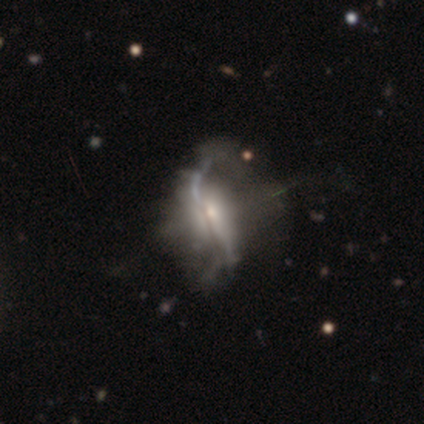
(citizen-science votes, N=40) smooth_or_featured: featured or disk (p=0.95) [alt: smooth p=0.03]
disk_edge_on: no (p=0.71) [alt: yes p=0.29]
bar: no (p=0.67) [alt: strong p=0.30]
has_spiral_arms: no (p=0.52) [alt: yes p=0.48]
bulge_size: small (p=0.59) [alt: moderate p=0.33]
merging: none (p=0.26) [tied with: major disturbance p=0.26]